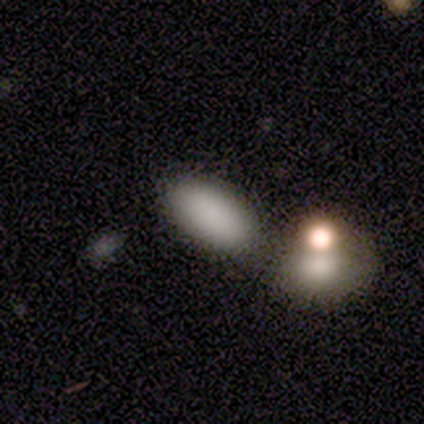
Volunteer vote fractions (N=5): smooth-or-featured: smooth: 80% | star or artifact: 20% | featured or disk: 0%
  how-rounded: in between: 100% | round: 0% | cigar-shaped: 0%
  merging: none: 75% | minor disturbance: 25% | major disturbance: 0% | merger: 0%